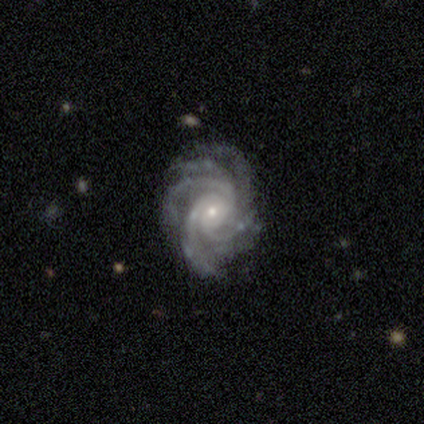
smooth_or_featured: featured or disk (p=1.00)
disk_edge_on: no (p=1.00)
bar: no (p=0.60) [alt: weak p=0.40]
has_spiral_arms: yes (p=1.00)
spiral_winding: medium (p=0.60) [alt: tight p=0.40]
spiral_arm_count: more than 4 (p=0.60) [alt: 4 p=0.20]
bulge_size: small (p=1.00)
merging: none (p=0.80) [alt: minor disturbance p=0.20]